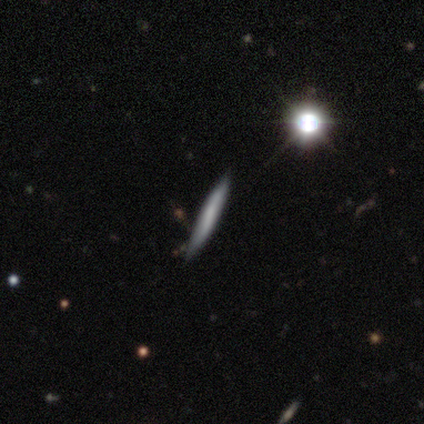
Volunteers were most divided on "smooth or featured": featured or disk: 52%, smooth: 42%, star or artifact: 5%. More confident: edge-on disk — yes (95%); edge-on bulge — none (95%); merging — none (87%).